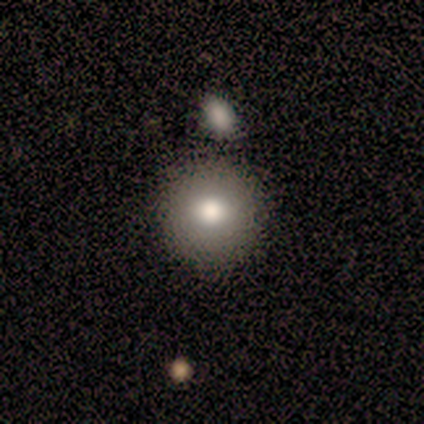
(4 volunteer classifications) A smooth galaxy with no disk features (100%) that is round (100%).

Vote fractions:
- Smooth or featured? smooth: 100% / featured or disk: 0% / star or artifact: 0%
- How rounded? round: 100% / in between: 0% / cigar-shaped: 0%
- Merging? none: 50% / minor disturbance: 25% / merger: 25% / major disturbance: 0%